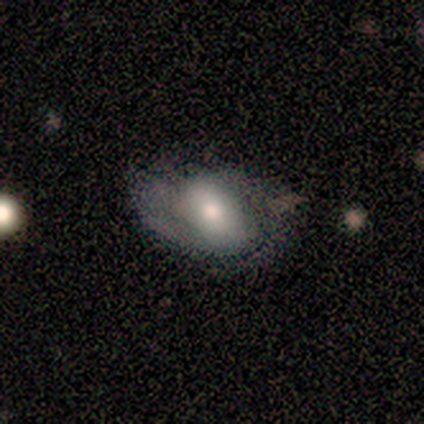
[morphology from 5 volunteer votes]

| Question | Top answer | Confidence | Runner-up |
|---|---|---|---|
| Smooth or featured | featured or disk | 60% | smooth (40%) |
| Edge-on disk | no | 100% | — |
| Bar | weak | 100% | — |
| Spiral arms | yes | 100% | — |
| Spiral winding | medium | 100% | — |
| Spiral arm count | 2 | 67% | 3 (33%) |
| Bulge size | small | 67% | moderate (33%) |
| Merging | none | 80% | minor disturbance (20%) |